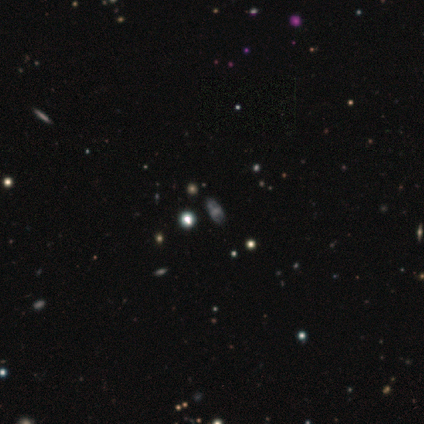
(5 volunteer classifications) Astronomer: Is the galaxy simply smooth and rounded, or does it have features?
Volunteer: smooth — 60% (runner-up: star or artifact, 40%).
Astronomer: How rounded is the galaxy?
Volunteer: round — 67%.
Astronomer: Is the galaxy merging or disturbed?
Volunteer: none — 100%.